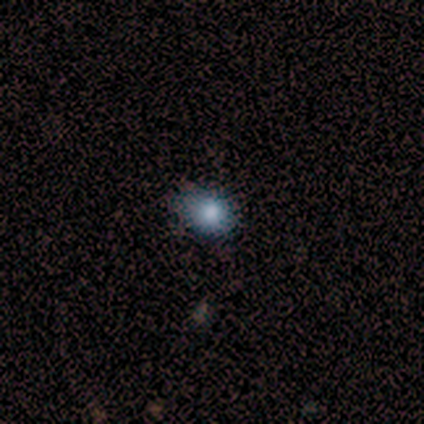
This appears to be a smooth galaxy with no disk features (100%) that is round (60%). Merging: none (80%).